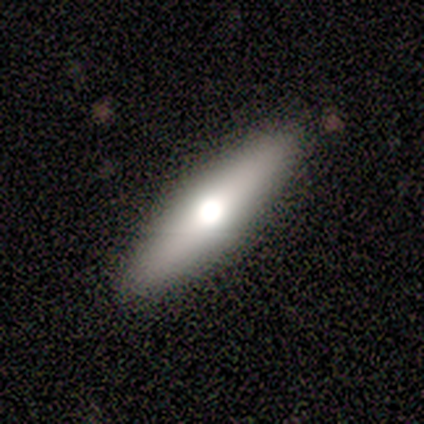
smooth_or_featured: smooth (p=0.83) [alt: featured or disk p=0.17]
how_rounded: cigar-shaped (p=0.80) [alt: in between p=0.20]
merging: none (p=1.00)